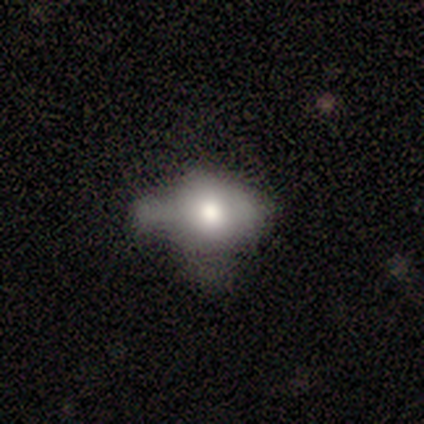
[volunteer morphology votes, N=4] Smooth or featured: smooth — 75% (featured or disk — 25%)
How rounded: in between — 100%
Merging: none — 75% (merger — 25%)